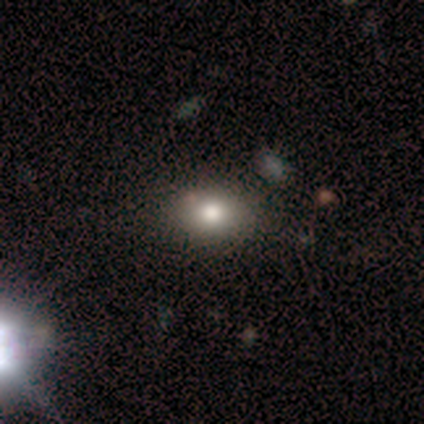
smooth 75%, star or artifact 25%, featured or disk 0%. Down the decision tree: how rounded — in between (100%); merging — minor disturbance (100%).